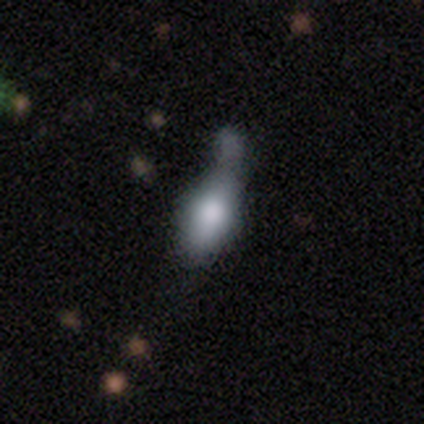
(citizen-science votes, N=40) Volunteers were most divided on "merging": merger: 38%, minor disturbance: 32%, none: 16%, major disturbance: 14%. More confident: smooth or featured — smooth (75%); how rounded — in between (63%).